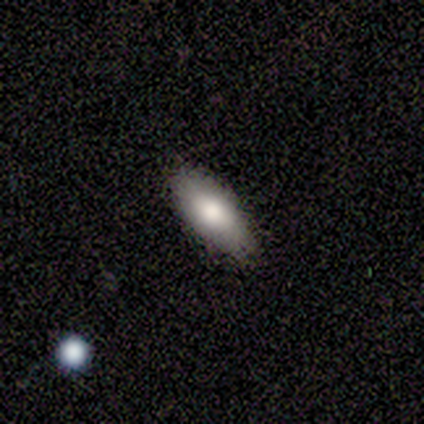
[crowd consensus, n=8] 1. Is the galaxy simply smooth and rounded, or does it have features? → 75% smooth, 25% featured or disk, 0% star or artifact.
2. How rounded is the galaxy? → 67% in between, 33% cigar-shaped, 0% round.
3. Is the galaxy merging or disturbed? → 100% none, 0% minor disturbance, 0% major disturbance, 0% merger.